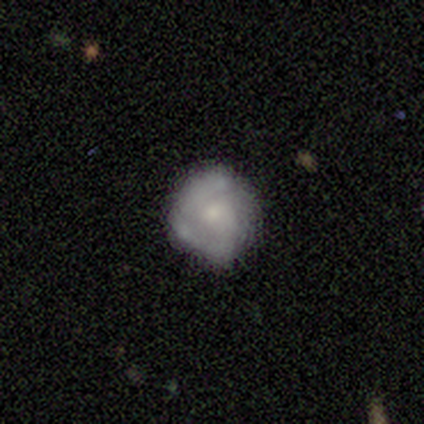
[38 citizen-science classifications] Overall: featured or disk (55%; smooth 37%). Edge-on disk: no (100%). Bar: no (76%). Spiral arms: yes (67%; no 33%). Spiral arm count: 2 (57%; 1 21%). Spiral winding: tight (43%; medium 36%). Bulge size: small (48%; moderate 29%). Merging: none (51%; minor disturbance 26%).